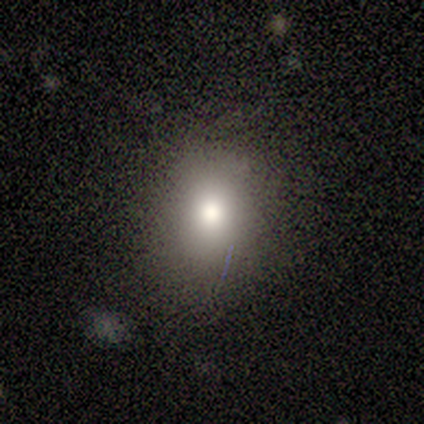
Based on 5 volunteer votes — Morphology: type=smooth (60%); roundness=in between (100%); merging=minor disturbance (75%).